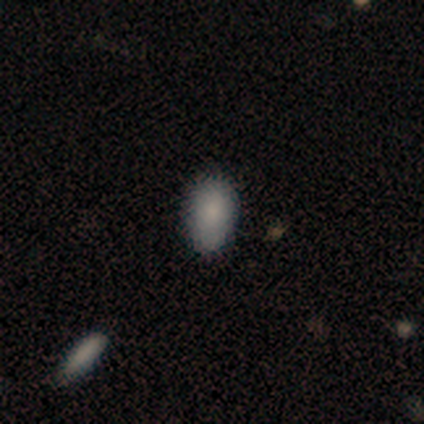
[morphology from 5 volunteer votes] This is clearly a smooth galaxy (80%). How rounded: likely in between (75%). Merging: clearly none (100%).